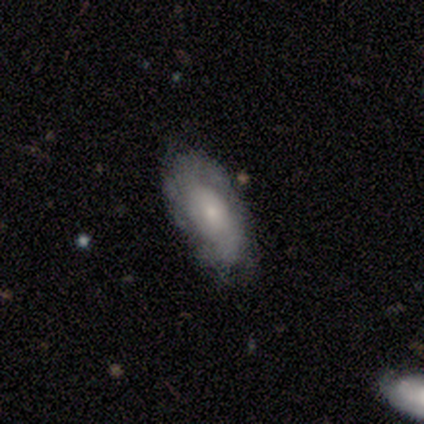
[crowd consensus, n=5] Smooth or featured?
  - featured or disk: 60% *
  - smooth: 20%
  - star or artifact: 20%
Edge-on disk?
  - no: 100% *
  - yes: 0%
Bar?
  - no: 100% *
  - strong: 0%
  - weak: 0%
Spiral arms?
  - yes: 67% *
  - no: 33%
Spiral winding?
  - tight: 50% * (tied)
  - loose: 50% * (tied)
  - medium: 0%
Spiral arm count?
  - 1: 50% * (tied)
  - can't tell: 50% * (tied)
  - 2: 0%
  - 3: 0%
  - 4: 0%
  - more than 4: 0%
Bulge size?
  - small: 67% *
  - moderate: 33%
  - dominant: 0%
  - large: 0%
  - none: 0%
Merging?
  - none: 75% *
  - minor disturbance: 25%
  - major disturbance: 0%
  - merger: 0%